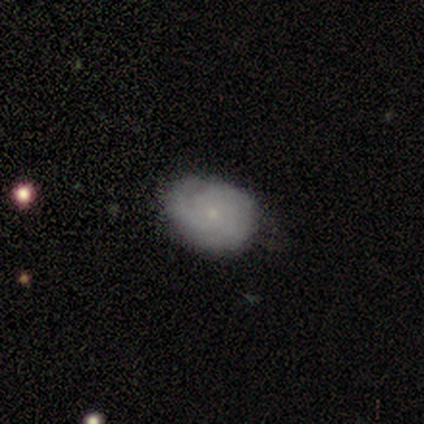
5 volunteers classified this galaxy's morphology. A featured or disk galaxy (60%) with no bar (100%), 2 (50%, tied with can't tell) medium (100%) spiral arms (67%) and a small central bulge (100%).

Vote fractions:
- Smooth or featured? featured or disk: 60% / smooth: 40% / star or artifact: 0%
- Edge-on disk? no: 100% / yes: 0%
- Bar? no: 100% / strong: 0% / weak: 0%
- Spiral arms? yes: 67% / no: 33%
- Spiral winding? medium: 100% / tight: 0% / loose: 0%
- Spiral arm count? 2: 50% (tied) / can't tell: 50% (tied) / 1: 0% / 3: 0% / 4: 0% / more than 4: 0%
- Bulge size? small: 100% / dominant: 0% / large: 0% / moderate: 0% / none: 0%
- Merging? none: 60% / minor disturbance: 40% / major disturbance: 0% / merger: 0%